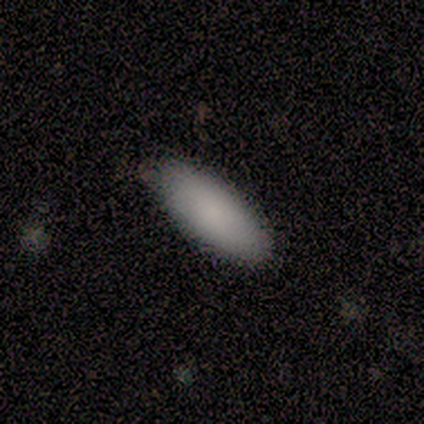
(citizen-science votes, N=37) A smooth galaxy with no disk features (92%) that is in between round and cigar-shaped (76%). Merging: none (73%).